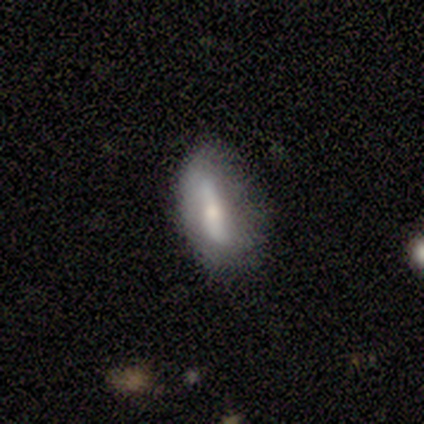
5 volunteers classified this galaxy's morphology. A featured or disk galaxy (60%) with a strong bar (33%, tied with weak and no), no spiral arms (67%) and a small central bulge (67%).

Vote fractions:
- Smooth or featured? featured or disk: 60% / smooth: 40% / star or artifact: 0%
- Edge-on disk? no: 100% / yes: 0%
- Bar? strong: 33% (tied) / weak: 33% (tied) / no: 33% (tied)
- Spiral arms? no: 67% / yes: 33%
- Bulge size? small: 67% / moderate: 33% / dominant: 0% / large: 0% / none: 0%
- Merging? none: 60% / minor disturbance: 40% / major disturbance: 0% / merger: 0%